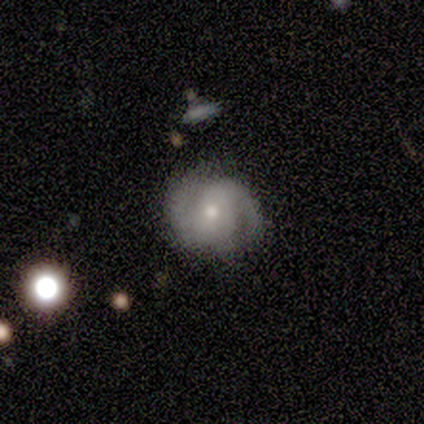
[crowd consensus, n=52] A featured or disk galaxy (81%) with no bar (50%), 2 (92%) tight (46%) spiral arms (93%) and a moderate central bulge (50%).

Vote fractions:
- Smooth or featured? featured or disk: 81% / smooth: 19% / star or artifact: 0%
- Edge-on disk? no: 100% / yes: 0%
- Bar? no: 50% / weak: 29% / strong: 21%
- Spiral arms? yes: 93% / no: 7%
- Spiral winding? tight: 46% / medium: 33% / loose: 21%
- Spiral arm count? 2: 92% / can't tell: 8% / 1: 0% / 3: 0% / 4: 0% / more than 4: 0%
- Bulge size? moderate: 50% / small: 45% / large: 2% / none: 2% / dominant: 0%
- Merging? none: 71% / minor disturbance: 19% / major disturbance: 6% / merger: 4%